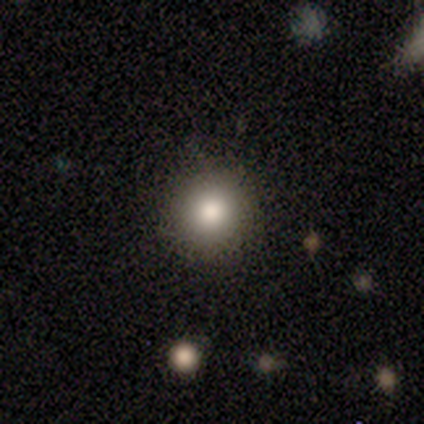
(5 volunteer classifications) Volunteers were most divided on "smooth or featured": smooth: 60%, featured or disk: 20%, star or artifact: 20%. More confident: how rounded — round (100%); merging — none (75%).